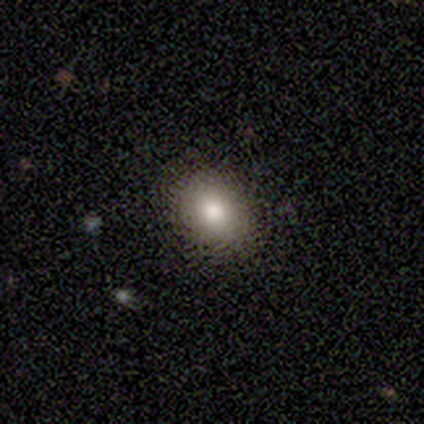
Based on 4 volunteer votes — Smooth or featured? smooth (75%)
How rounded? in between (67%)
Merging? none (100%)